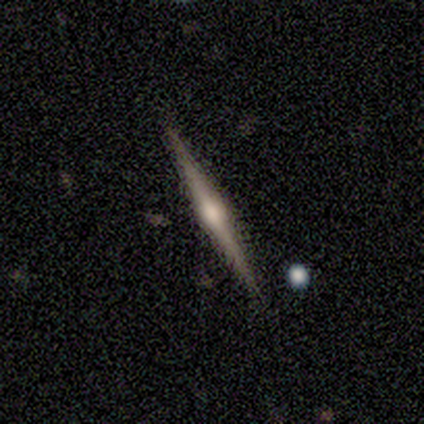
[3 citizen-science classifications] This appears to be a featured or disk galaxy (67%) viewed edge-on (100%) with a rounded central bulge (100%). Merging: none (100%).